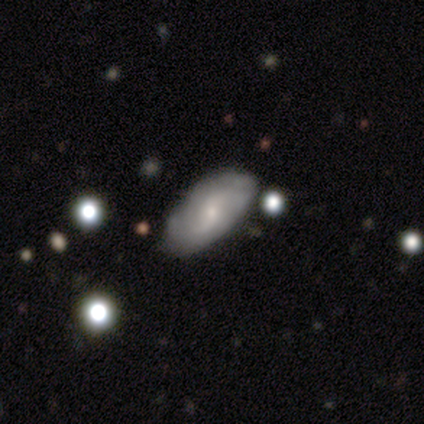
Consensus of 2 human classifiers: Consensus on every question: smooth or featured — featured or disk (100%); edge-on disk — no (100%); bar — weak (100%); spiral arms — yes (100%); spiral winding — medium (100%); spiral arm count — 2 (100%); bulge size — small (100%); merging — none (100%).